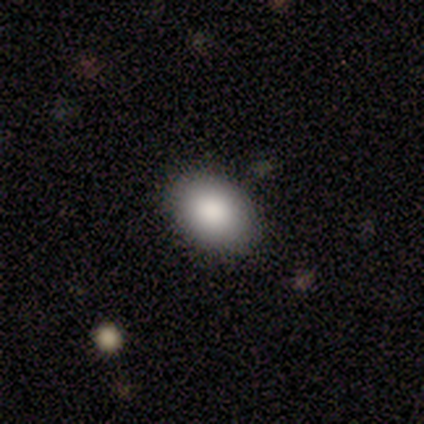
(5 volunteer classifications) Smooth or featured?
  - smooth: 100% *
  - featured or disk: 0%
  - star or artifact: 0%
How rounded?
  - in between: 80% *
  - round: 20%
  - cigar-shaped: 0%
Merging?
  - none: 100% *
  - minor disturbance: 0%
  - major disturbance: 0%
  - merger: 0%